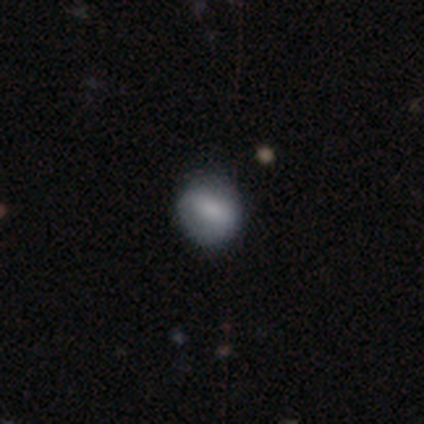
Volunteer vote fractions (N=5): Overall: smooth (40%, tied with featured or disk). How rounded: round (100%). Merging: none (75%).